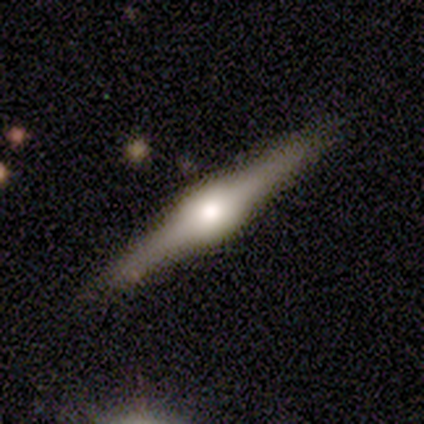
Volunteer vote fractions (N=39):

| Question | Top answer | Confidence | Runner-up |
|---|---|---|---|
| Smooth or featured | featured or disk | 85% | star or artifact (10%) |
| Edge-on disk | yes | 97% | no (3%) |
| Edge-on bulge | rounded | 81% | boxy (19%) |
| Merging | none | 80% | minor disturbance (17%) |